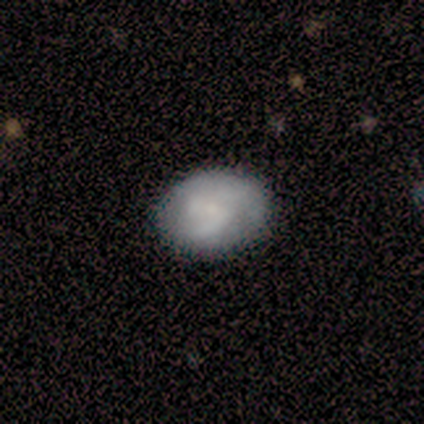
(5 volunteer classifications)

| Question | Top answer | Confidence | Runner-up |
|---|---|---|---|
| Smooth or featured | smooth | 80% | featured or disk (20%) |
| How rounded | in between | 75% | round (25%) |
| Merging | none | 80% | minor disturbance (20%) |